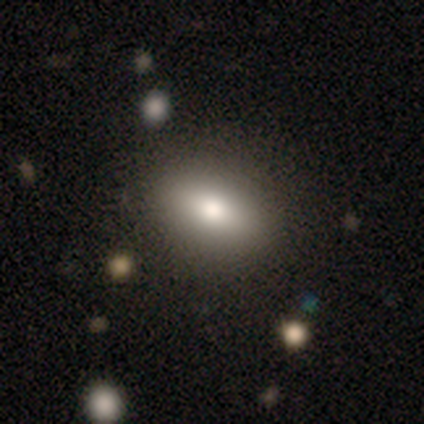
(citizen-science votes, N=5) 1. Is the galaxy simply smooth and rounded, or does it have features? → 60% smooth, 40% star or artifact, 0% featured or disk.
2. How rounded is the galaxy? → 67% in between, 33% cigar-shaped, 0% round.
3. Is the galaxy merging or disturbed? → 33% none (tied), 33% minor disturbance (tied), 33% merger (tied), 0% major disturbance.